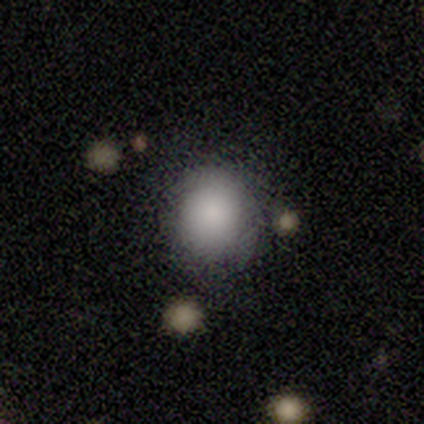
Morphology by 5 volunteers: Smooth or featured: smooth — 100%
How rounded: round — 60% (in between — 40%)
Merging: minor disturbance — 60% (none — 40%)